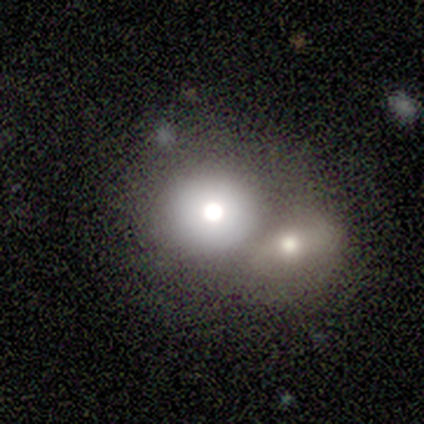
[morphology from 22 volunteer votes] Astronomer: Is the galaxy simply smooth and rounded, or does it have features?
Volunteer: smooth — 45% (runner-up: featured or disk, 32%).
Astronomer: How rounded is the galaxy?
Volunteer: round — 90%.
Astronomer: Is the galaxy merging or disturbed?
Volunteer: none — 47% (runner-up: merger, 41%).